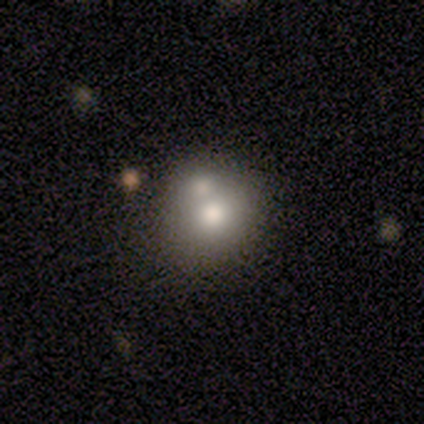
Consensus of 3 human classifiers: A smooth galaxy with no disk features (100%) that is round (67%).

Vote fractions:
- Smooth or featured? smooth: 100% / featured or disk: 0% / star or artifact: 0%
- How rounded? round: 67% / in between: 33% / cigar-shaped: 0%
- Merging? merger: 67% / none: 33% / minor disturbance: 0% / major disturbance: 0%